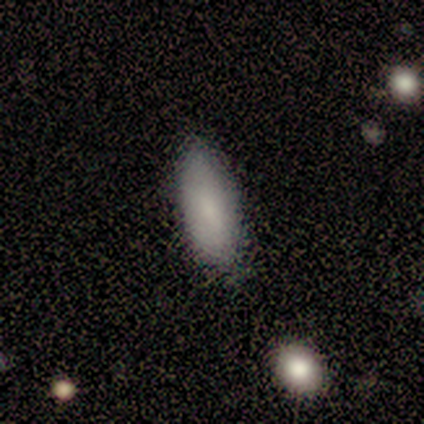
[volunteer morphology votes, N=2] Overall: smooth (100%). How rounded: in between (100%). Merging: none (50%, tied with minor disturbance).